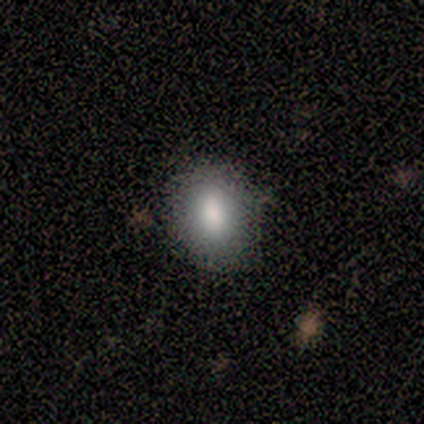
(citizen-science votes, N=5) smooth_or_featured: smooth (p=1.00)
how_rounded: in between (p=0.60) [alt: round p=0.40]
merging: none (p=1.00)